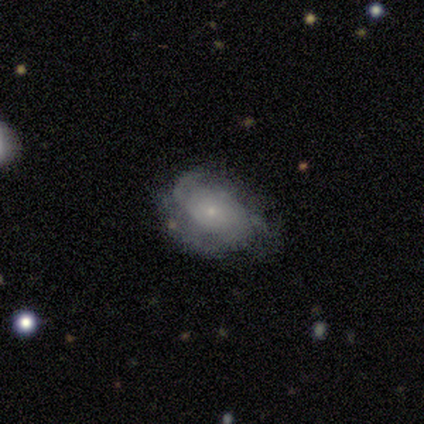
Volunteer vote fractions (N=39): smooth-or-featured: featured or disk: 72% | smooth: 21% | star or artifact: 8%
  disk-edge-on: no: 86% | yes: 14%
    bar: no: 75% | weak: 25% | strong: 0%
    has-spiral-arms: yes: 79% | no: 21%
      spiral-winding: medium: 42% | tight: 37% | loose: 21%
      spiral-arm-count: 2: 32% (tied) | can't tell: 32% (tied) | 3: 21% | 1: 11% | 4: 5% | more than 4: 0%
    bulge-size: small: 83% | none: 8% | large: 4% | moderate: 4% | dominant: 0%
  merging: none: 58% | minor disturbance: 33% | major disturbance: 8% | merger: 0%